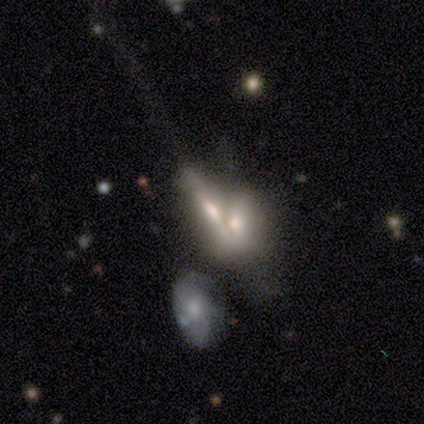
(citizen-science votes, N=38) Smooth or featured? featured or disk (61%)
Edge-on disk? yes (52%)
Edge-on bulge? rounded (75%)
Merging? merger (63%)